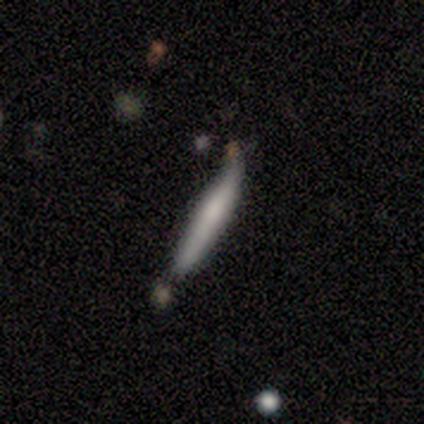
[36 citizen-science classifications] A smooth galaxy with no disk features (78%) that is cigar-shaped (93%). Merging: none (58%).